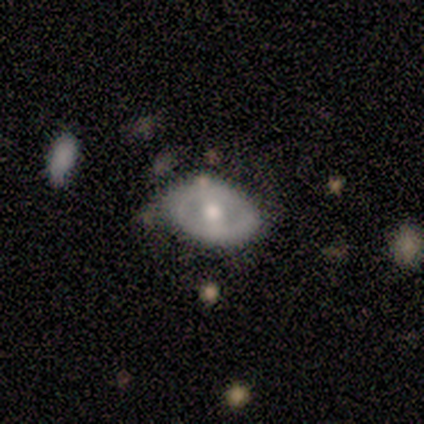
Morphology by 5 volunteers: A smooth galaxy with no disk features (80%) that is in between round and cigar-shaped (75%).

Vote fractions:
- Smooth or featured? smooth: 80% / featured or disk: 20% / star or artifact: 0%
- How rounded? in between: 75% / cigar-shaped: 25% / round: 0%
- Merging? minor disturbance: 60% / none: 40% / major disturbance: 0% / merger: 0%